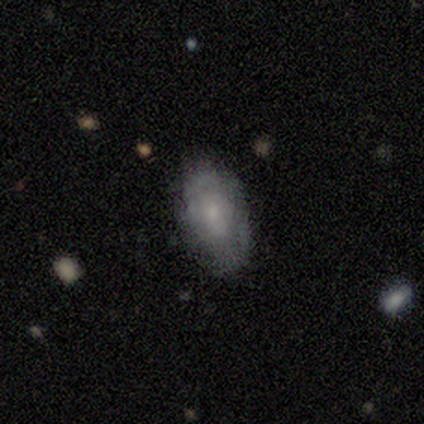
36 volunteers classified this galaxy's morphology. This is possibly a smooth galaxy (58%). How rounded: clearly in between (100%). Merging: likely none (79%).